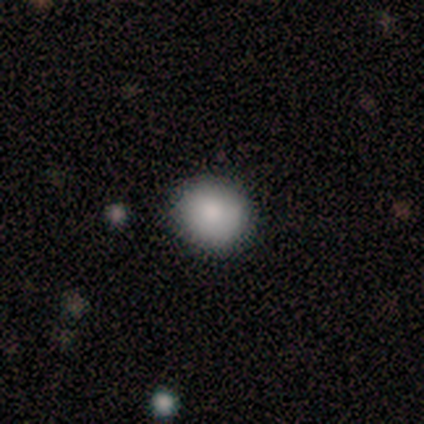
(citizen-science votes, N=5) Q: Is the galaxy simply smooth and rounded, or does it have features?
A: smooth — 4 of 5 (80%).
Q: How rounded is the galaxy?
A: round — 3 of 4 (75%).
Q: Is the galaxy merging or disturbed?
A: none — 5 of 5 (100%).